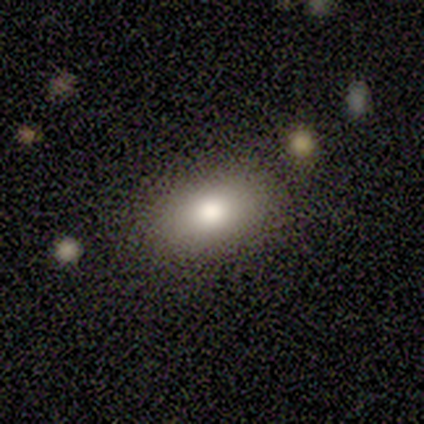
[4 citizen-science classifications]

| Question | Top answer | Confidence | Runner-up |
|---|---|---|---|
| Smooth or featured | smooth | 100% | — |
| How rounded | round | 50% | tied: in between (50%) |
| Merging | none | 75% | major disturbance (25%) |